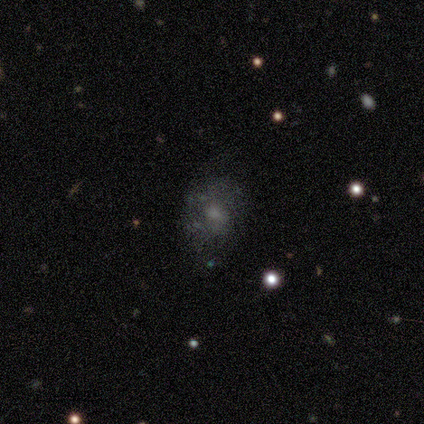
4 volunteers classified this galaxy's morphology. smooth_or_featured: featured or disk (p=0.75) [alt: smooth p=0.25]
disk_edge_on: no (p=1.00)
bar: no (p=1.00)
has_spiral_arms: no (p=0.67) [alt: yes p=0.33]
bulge_size: small (p=0.67) [alt: moderate p=0.33]
merging: none (p=1.00)